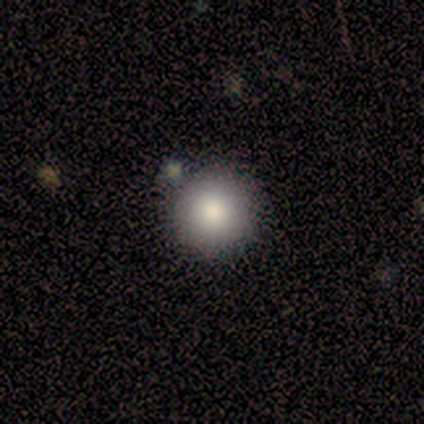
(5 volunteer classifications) This is clearly a smooth galaxy (80%). How rounded: clearly round (100%). Merging: clearly none (100%).